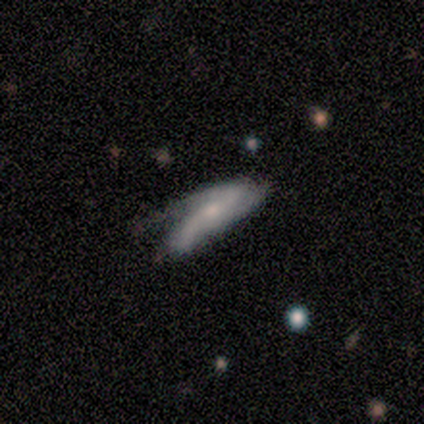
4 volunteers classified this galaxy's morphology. Smooth or featured? smooth (50%, tied with featured or disk)
How rounded? in between (100%)
Merging? none (50%)